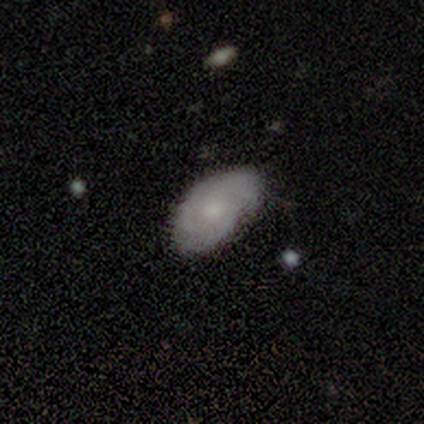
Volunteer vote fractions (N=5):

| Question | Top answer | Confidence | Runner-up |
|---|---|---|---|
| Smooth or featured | smooth | 60% | featured or disk (40%) |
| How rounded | in between | 100% | — |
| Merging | none | 80% | major disturbance (20%) |